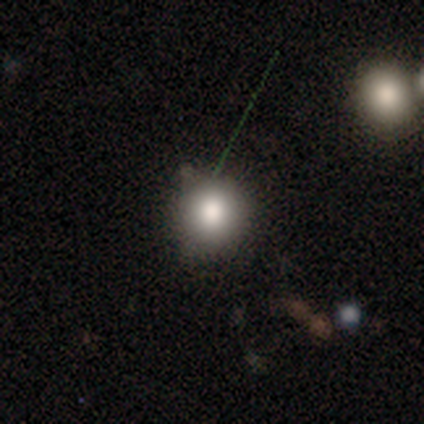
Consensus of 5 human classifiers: smooth-or-featured: smooth: 100% | featured or disk: 0% | star or artifact: 0%
  how-rounded: round: 100% | in between: 0% | cigar-shaped: 0%
  merging: none: 100% | minor disturbance: 0% | major disturbance: 0% | merger: 0%